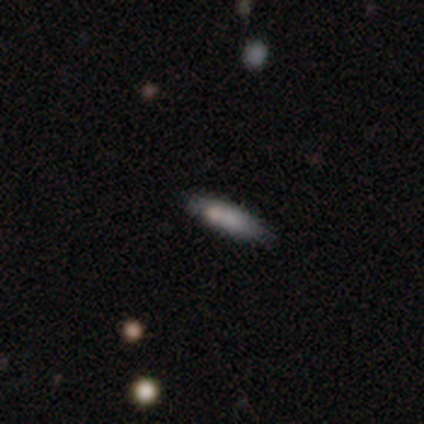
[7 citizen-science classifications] smooth_or_featured: smooth (p=1.00)
how_rounded: cigar-shaped (p=0.86) [alt: in between p=0.14]
merging: none (p=0.71) [alt: minor disturbance p=0.29]